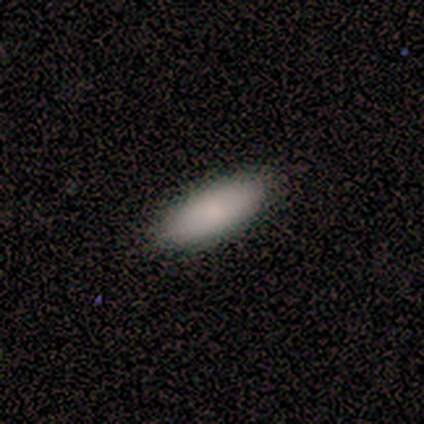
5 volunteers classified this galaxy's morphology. Smooth or featured: smooth — 80% (star or artifact — 20%)
How rounded: in between — 75% (cigar-shaped — 25%)
Merging: none — 100%